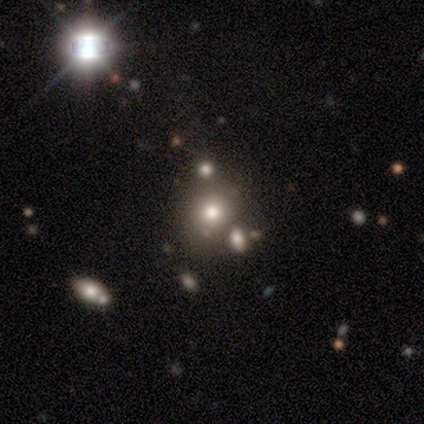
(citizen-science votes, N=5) This is clearly a smooth galaxy (80%). How rounded: clearly round (100%). Merging: likely none (60%).